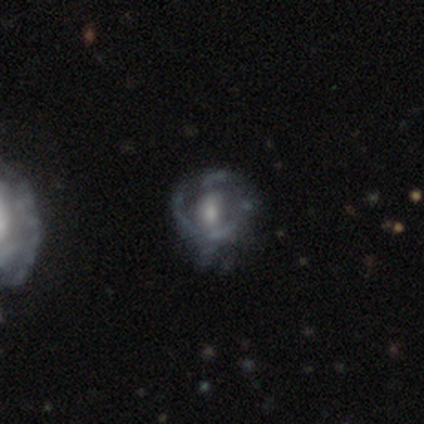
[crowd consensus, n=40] Volunteers were most divided on "bar": no: 52%, weak: 39%, strong: 10%. More confident: edge-on disk — no (100%); smooth or featured — featured or disk (78%); spiral arms — no (61%); merging — none (54%); bulge size — moderate (52%).